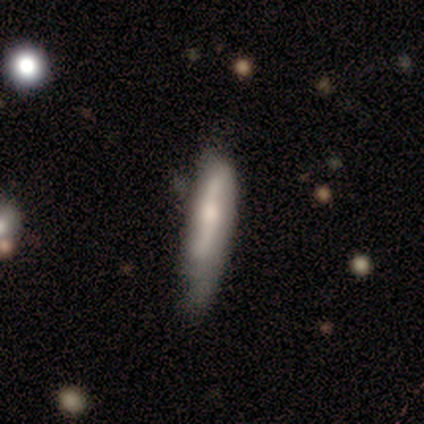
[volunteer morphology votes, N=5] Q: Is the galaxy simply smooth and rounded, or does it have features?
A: featured or disk — 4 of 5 (80%).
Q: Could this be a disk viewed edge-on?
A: yes — 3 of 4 (75%).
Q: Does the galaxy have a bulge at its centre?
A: boxy — 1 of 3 (33%, tied with none and rounded).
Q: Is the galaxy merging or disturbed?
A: minor disturbance — 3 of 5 (60%).